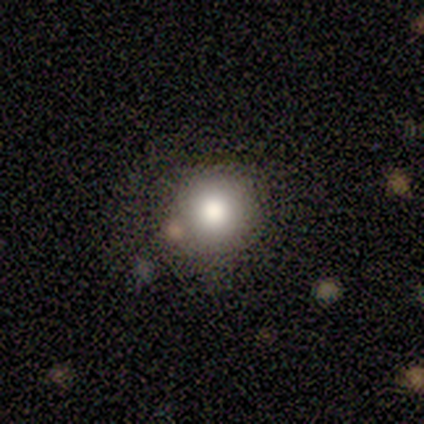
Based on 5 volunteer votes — Smooth or featured? 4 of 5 (80%) said smooth. How rounded? 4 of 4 (100%) said round. Merging? 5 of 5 (100%) said none.